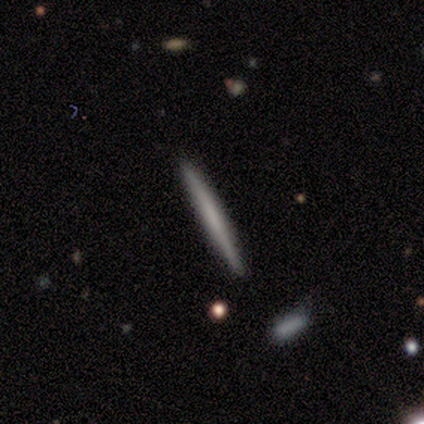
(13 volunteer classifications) Smooth or featured? 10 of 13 (77%) said smooth. How rounded? 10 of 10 (100%) said cigar-shaped. Merging? 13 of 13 (100%) said none.